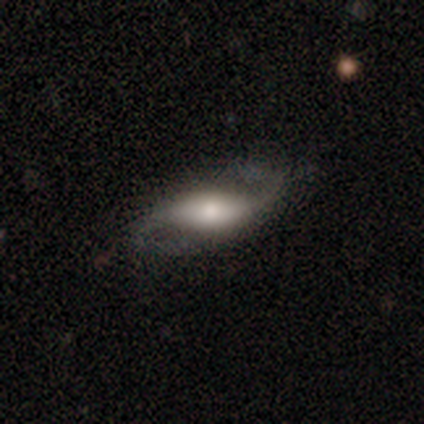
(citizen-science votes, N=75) Smooth or featured? 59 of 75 (79%) said featured or disk. Edge-on disk? 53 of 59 (90%) said no. Bar? 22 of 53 (42%) said no. Spiral arms? 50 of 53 (94%) said yes. Spiral winding? 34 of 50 (68%) said loose. Spiral arm count? 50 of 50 (100%) said 2. Bulge size? 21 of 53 (40%) said moderate. Merging? 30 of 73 (41%) said none.